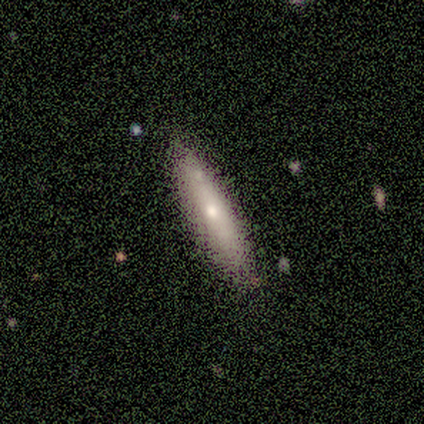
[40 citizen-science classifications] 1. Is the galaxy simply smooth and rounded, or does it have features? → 50% smooth, 45% featured or disk, 5% star or artifact.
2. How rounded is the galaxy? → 80% cigar-shaped, 20% in between, 0% round.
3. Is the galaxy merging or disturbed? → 68% none, 8% merger, 3% minor disturbance, 3% major disturbance.